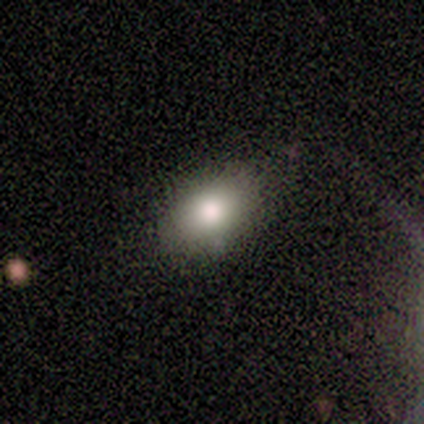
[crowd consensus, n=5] smooth 80%, featured or disk 20%, star or artifact 0%. Down the decision tree: how rounded — round (50%, tied with in between); merging — none (80%).